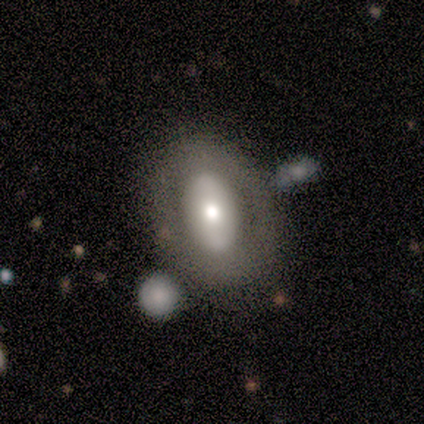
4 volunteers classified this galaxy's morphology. smooth-or-featured: star or artifact: 50% | smooth: 25% | featured or disk: 25%